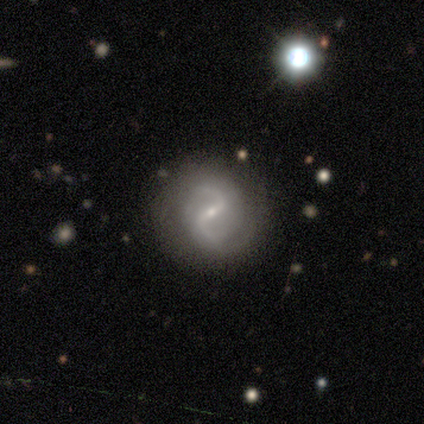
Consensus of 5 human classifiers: Overall: featured or disk (100%). Edge-on disk: no (60%; yes 40%). Bar: strong (67%; weak 33%). Spiral arms: yes (100%). Spiral arm count: 2 (100%). Spiral winding: tight (33%, tied with medium and loose). Bulge size: small (100%). Merging: none (80%).